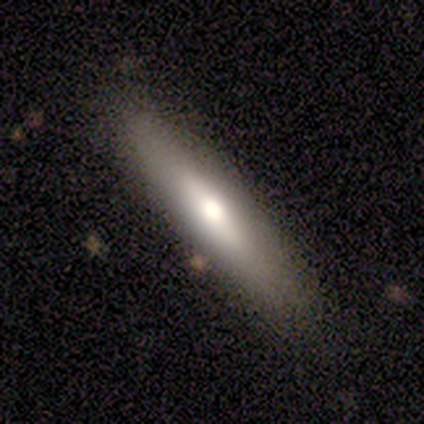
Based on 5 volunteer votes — smooth 80%, featured or disk 20%, star or artifact 0%. Down the decision tree: how rounded — cigar-shaped (75%); merging — none (100%).